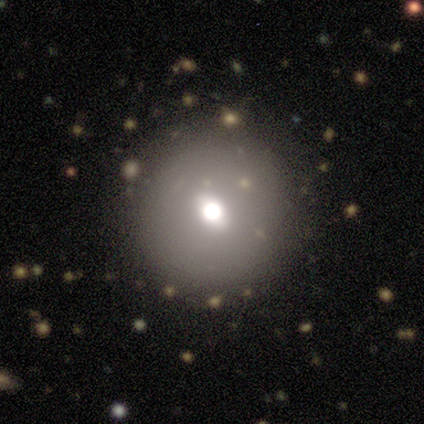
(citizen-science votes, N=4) smooth 50%, featured or disk 25%, star or artifact 25%. Down the decision tree: how rounded — round (100%); merging — none (100%).